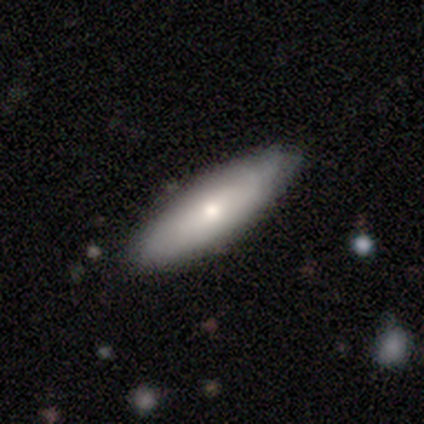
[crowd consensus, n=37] smooth 70%, featured or disk 27%, star or artifact 3%. Down the decision tree: how rounded — in between (62%); merging — none (89%).